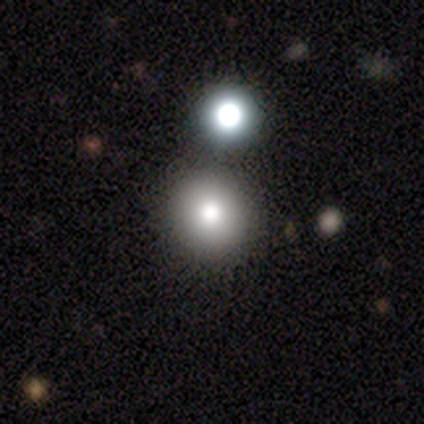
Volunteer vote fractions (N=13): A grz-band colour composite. It shows a smooth galaxy with no disk features (85%) that is round (91%). Merging: none (82%).